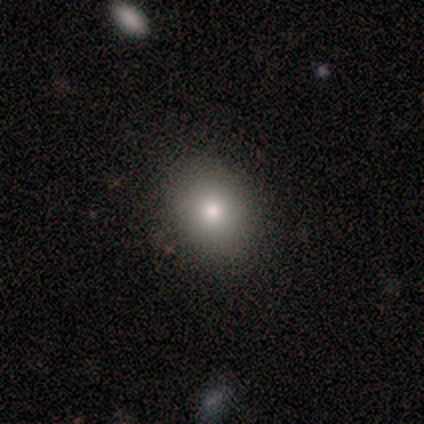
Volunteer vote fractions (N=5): Volunteers were most divided on "how rounded" (2-way tie): round: 50%, in between: 50%, cigar-shaped: 0%; "merging" (2-way tie): none: 40%, minor disturbance: 40%, merger: 20%, major disturbance: 0%. More confident: smooth or featured — smooth (80%).